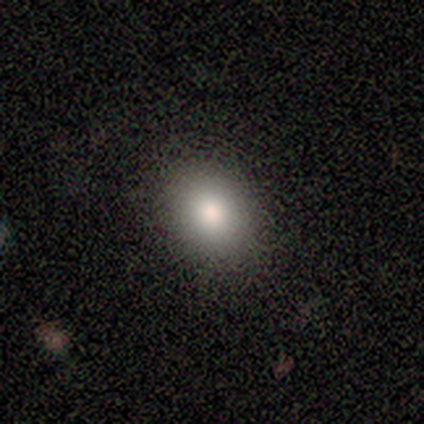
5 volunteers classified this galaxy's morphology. smooth_or_featured: smooth (p=0.60) [alt: featured or disk p=0.20]
how_rounded: round (p=0.67) [alt: in between p=0.33]
merging: none (p=0.75) [alt: minor disturbance p=0.25]